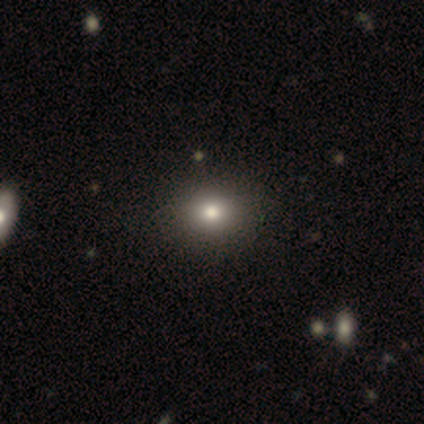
Volunteers were most divided on "smooth or featured": smooth: 72%, star or artifact: 23%, featured or disk: 5%. More confident: merging — none (93%); how rounded — round (75%).